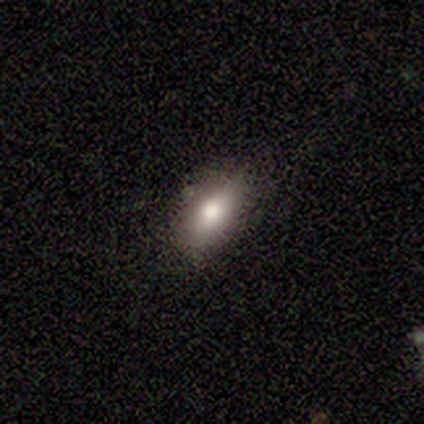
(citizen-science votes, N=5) Morphology: type=smooth (80%); roundness=in between (100%); merging=none (80%).